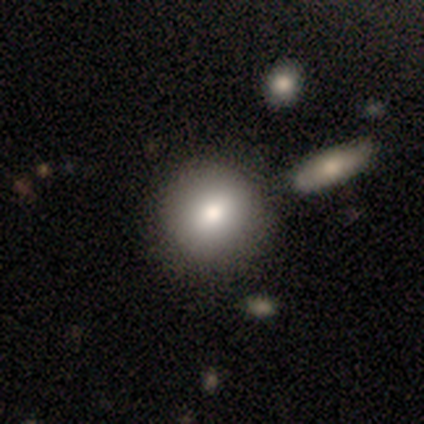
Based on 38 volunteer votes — Morphology: type=smooth (76%); roundness=round (90%); merging=none (82%).